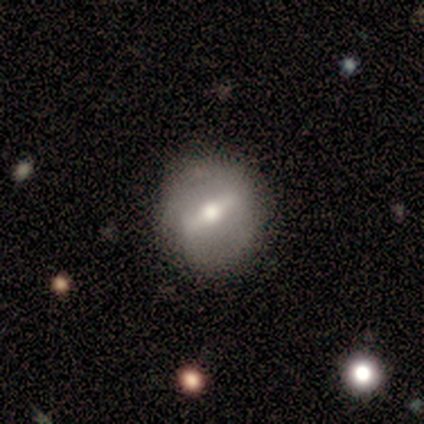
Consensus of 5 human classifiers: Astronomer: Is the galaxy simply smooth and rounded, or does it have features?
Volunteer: featured or disk — 80%.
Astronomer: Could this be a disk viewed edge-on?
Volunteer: no — 100%.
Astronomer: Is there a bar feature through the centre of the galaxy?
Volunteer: strong — 100%.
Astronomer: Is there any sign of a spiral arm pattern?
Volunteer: no — 75%.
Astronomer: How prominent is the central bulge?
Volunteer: moderate — 75%.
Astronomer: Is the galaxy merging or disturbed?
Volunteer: none — 100%.